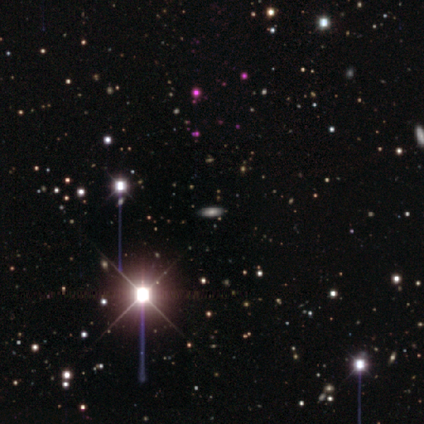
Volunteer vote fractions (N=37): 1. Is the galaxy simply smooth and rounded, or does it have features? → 51% star or artifact, 30% smooth, 19% featured or disk.